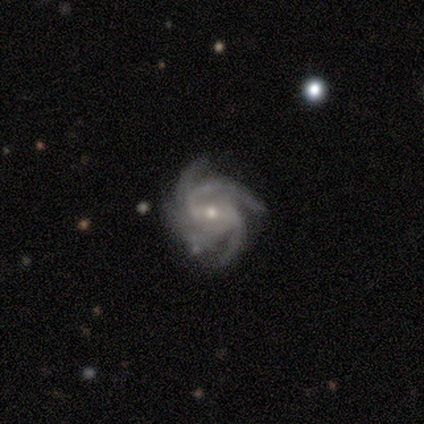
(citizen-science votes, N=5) A featured or disk galaxy (100%) with a weak bar (60%), 4 (40%, tied with more than 4) tight (60%) spiral arms (100%) and a small central bulge (60%). Merging: none (100%).